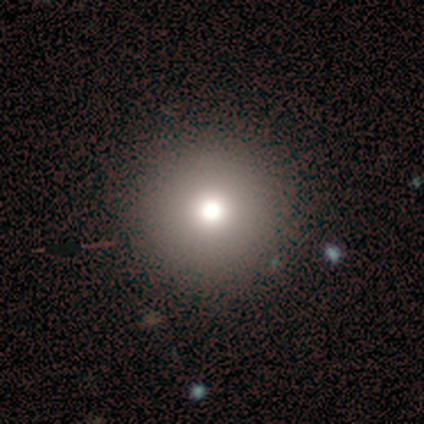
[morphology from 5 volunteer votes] smooth-or-featured: smooth: 40% (tied) | featured or disk: 40% (tied) | star or artifact: 20%
  how-rounded: round: 100% | in between: 0% | cigar-shaped: 0%
  merging: none: 75% | major disturbance: 25% | minor disturbance: 0% | merger: 0%